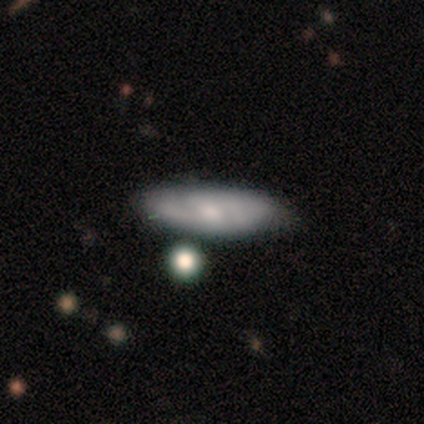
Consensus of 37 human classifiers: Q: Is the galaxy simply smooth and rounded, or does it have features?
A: smooth — 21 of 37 (57%).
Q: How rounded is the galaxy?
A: cigar-shaped — 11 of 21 (52%).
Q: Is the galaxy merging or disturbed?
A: none — 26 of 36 (72%).